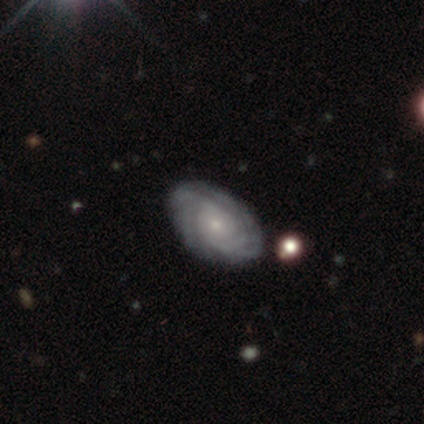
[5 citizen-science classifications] smooth_or_featured: featured or disk (p=0.80) [alt: smooth p=0.20]
disk_edge_on: no (p=1.00)
bar: no (p=1.00)
has_spiral_arms: yes (p=1.00)
spiral_winding: tight (p=1.00)
spiral_arm_count: 4 (p=0.50) [alt: more than 4 p=0.25]
bulge_size: small (p=1.00)
merging: none (p=1.00)